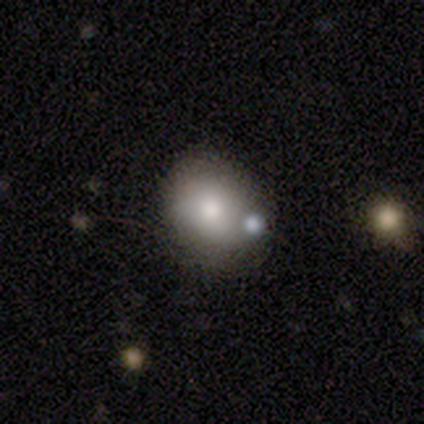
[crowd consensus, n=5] Volunteers were most divided on "how rounded": round: 80%, in between: 20%, cigar-shaped: 0%. More confident: smooth or featured — smooth (100%); merging — none (80%).